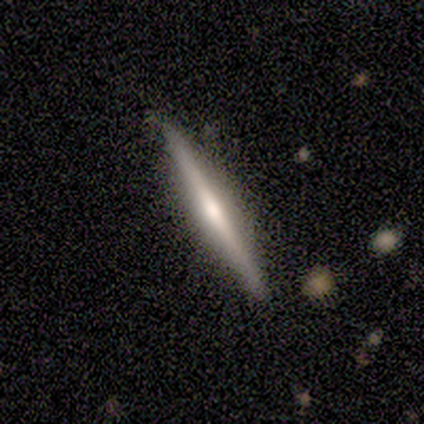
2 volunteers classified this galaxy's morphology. Smooth or featured?
  - smooth: 50% * (tied)
  - featured or disk: 50% * (tied)
  - star or artifact: 0%
How rounded?
  - cigar-shaped: 100% *
  - round: 0%
  - in between: 0%
Merging?
  - none: 100% *
  - minor disturbance: 0%
  - major disturbance: 0%
  - merger: 0%